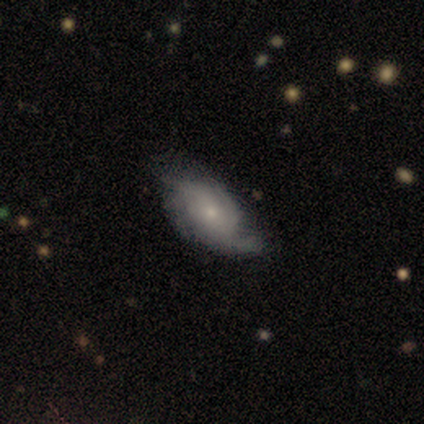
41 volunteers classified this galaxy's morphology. Volunteers were most divided on "spiral winding": medium: 38%, tight: 35%, loose: 27%. Remaining: bar — no (100%); edge-on disk — no (97%); spiral arms — yes (93%); smooth or featured — featured or disk (71%); bulge size — small (68%); merging — none (56%); spiral arm count — 2 (31%).